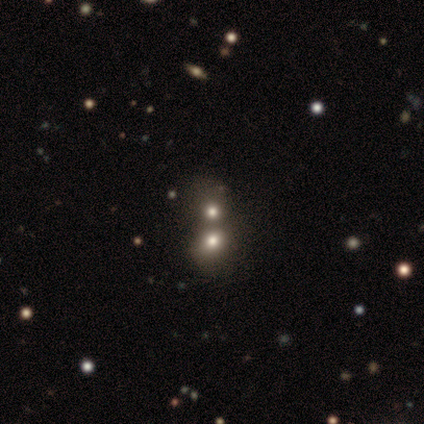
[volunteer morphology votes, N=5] This appears to be a smooth galaxy with no disk features (60%) that is round (100%). Merging: merger (75%).